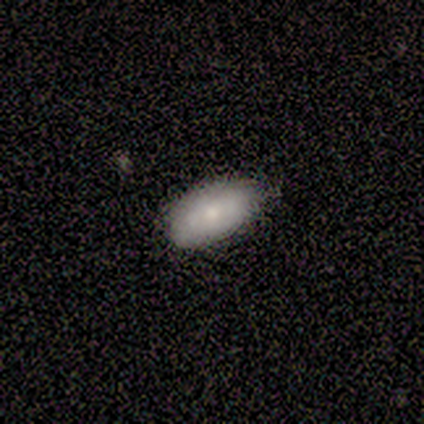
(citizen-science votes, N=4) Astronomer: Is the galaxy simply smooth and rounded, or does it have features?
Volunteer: smooth — 75%.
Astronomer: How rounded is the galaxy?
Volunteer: in between — 100%.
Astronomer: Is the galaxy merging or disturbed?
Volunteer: none — 75%.